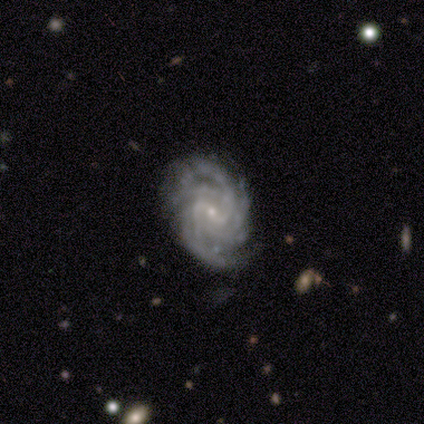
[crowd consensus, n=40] Morphology: type=featured or disk (95%); edge-on=no (97%); bar=weak (68%); spiral arms=yes (100%); winding=tight (78%); arm count=can't tell (38%); bulge=small (92%); merging=none (79%).